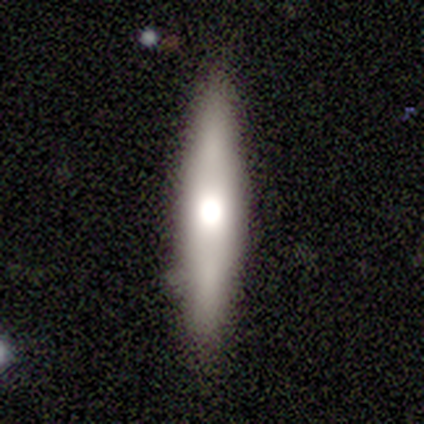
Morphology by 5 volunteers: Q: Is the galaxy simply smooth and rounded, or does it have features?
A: featured or disk — 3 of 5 (60%).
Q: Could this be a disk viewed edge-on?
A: yes — 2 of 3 (67%).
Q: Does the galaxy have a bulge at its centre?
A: rounded — 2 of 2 (100%).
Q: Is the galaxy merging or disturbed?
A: none — 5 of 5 (100%).